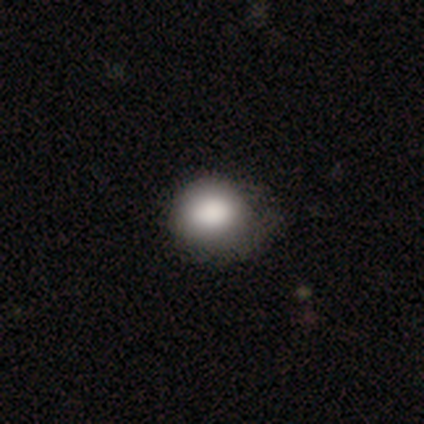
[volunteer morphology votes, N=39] A smooth galaxy with no disk features (95%) that is round (70%).

Vote fractions:
- Smooth or featured? smooth: 95% / featured or disk: 3% / star or artifact: 3%
- How rounded? round: 70% / in between: 30% / cigar-shaped: 0%
- Merging? none: 53% / minor disturbance: 39% / major disturbance: 8% / merger: 0%